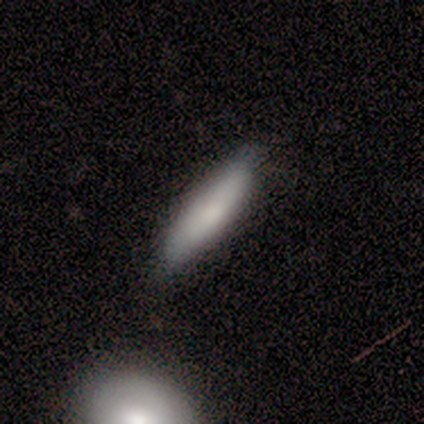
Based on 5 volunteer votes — A smooth galaxy with no disk features (60%) that is cigar-shaped (67%). Merging: none (75%).